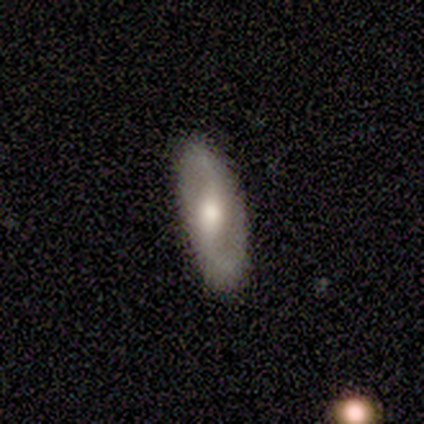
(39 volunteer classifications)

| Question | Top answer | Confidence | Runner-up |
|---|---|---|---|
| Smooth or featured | featured or disk | 72% | smooth (23%) |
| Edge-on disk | no | 86% | yes (14%) |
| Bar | weak | 50% | no (38%) |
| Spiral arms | yes | 92% | no (8%) |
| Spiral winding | loose | 73% | medium (23%) |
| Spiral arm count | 2 | 100% | — |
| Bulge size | moderate | 71% | large (17%) |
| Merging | none | 81% | minor disturbance (14%) |